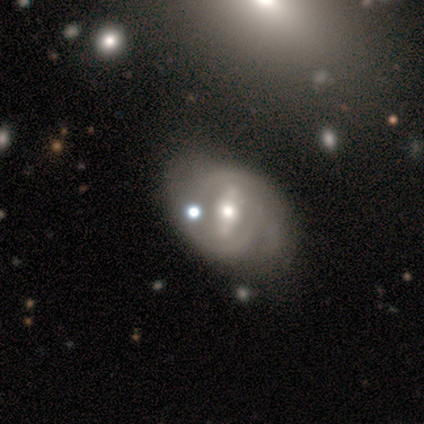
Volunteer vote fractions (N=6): Smooth or featured? 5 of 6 (83%) said featured or disk. Edge-on disk? 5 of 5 (100%) said no. Bar? 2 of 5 (40%, tied with no) said strong. Spiral arms? 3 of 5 (60%) said yes. Spiral winding? 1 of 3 (33%, tied with medium and loose) said tight. Spiral arm count? 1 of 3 (33%, tied with 2 and can't tell) said 1. Bulge size? 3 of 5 (60%) said moderate. Merging? 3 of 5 (60%) said none.